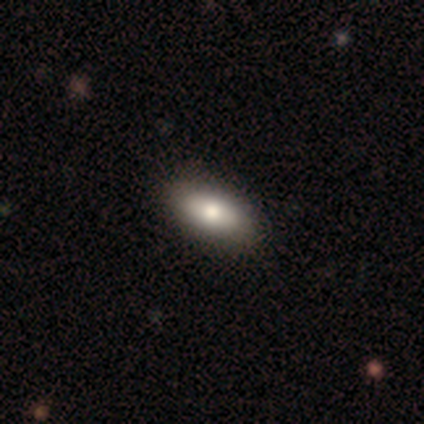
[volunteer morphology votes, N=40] Smooth or featured: smooth — 80% (featured or disk — 12%)
How rounded: in between — 94% (cigar-shaped — 6%)
Merging: none — 73% (minor disturbance — 3%)